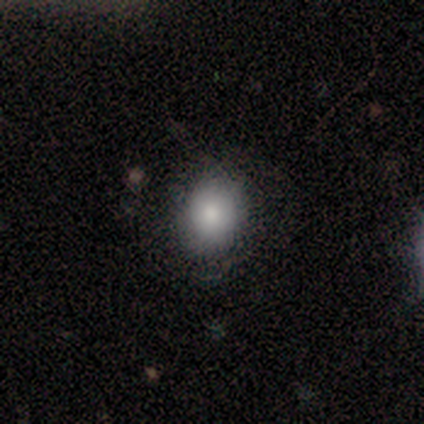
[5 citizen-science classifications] Overall: smooth (100%). How rounded: round (80%). Merging: none (80%).